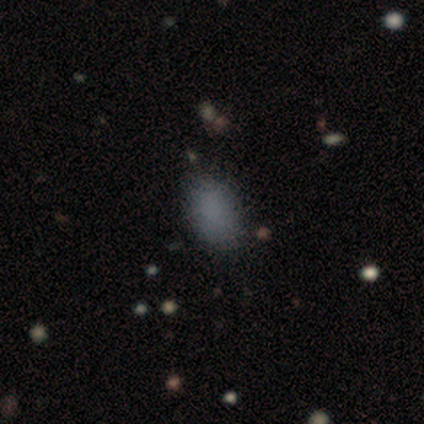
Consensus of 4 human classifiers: smooth 75%, featured or disk 25%, star or artifact 0%. Down the decision tree: how rounded — in between (100%); merging — none (75%).